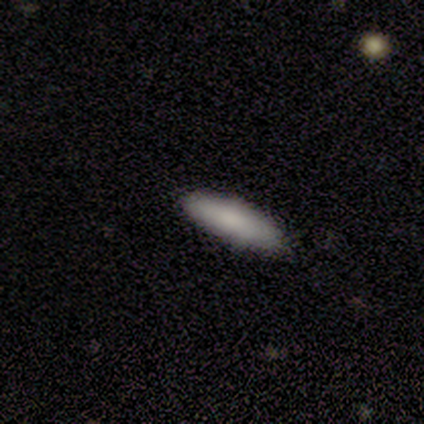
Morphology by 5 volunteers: A smooth galaxy with no disk features (100%) that is in between round and cigar-shaped (60%).

Vote fractions:
- Smooth or featured? smooth: 100% / featured or disk: 0% / star or artifact: 0%
- How rounded? in between: 60% / cigar-shaped: 40% / round: 0%
- Merging? none: 100% / minor disturbance: 0% / major disturbance: 0% / merger: 0%